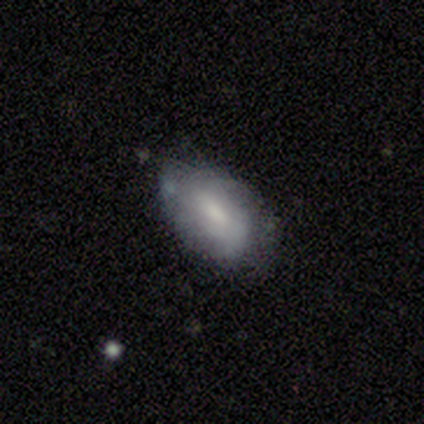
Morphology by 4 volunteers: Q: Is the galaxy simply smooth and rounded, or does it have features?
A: featured or disk — 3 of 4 (75%).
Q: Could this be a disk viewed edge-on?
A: no — 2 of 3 (67%).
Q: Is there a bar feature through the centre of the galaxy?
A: weak — 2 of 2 (100%).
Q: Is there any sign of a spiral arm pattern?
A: yes — 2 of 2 (100%).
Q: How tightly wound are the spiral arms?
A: tight — 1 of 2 (50%, tied with medium).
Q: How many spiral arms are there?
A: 1 — 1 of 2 (50%, tied with can't tell).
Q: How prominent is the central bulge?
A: moderate — 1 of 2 (50%, tied with none).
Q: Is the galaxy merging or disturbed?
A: none — 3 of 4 (75%).